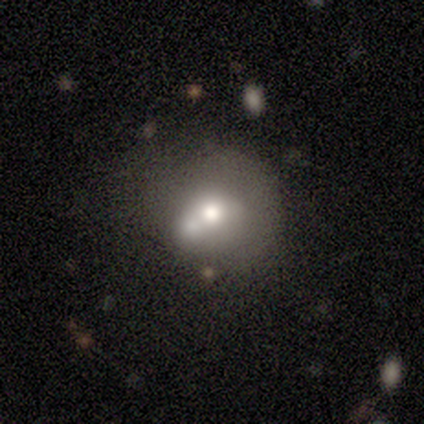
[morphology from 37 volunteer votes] Smooth or featured?
  - smooth: 49% *
  - featured or disk: 38%
  - star or artifact: 14%
How rounded?
  - round: 78% *
  - in between: 22%
  - cigar-shaped: 0%
Merging?
  - merger: 44% *
  - none: 28%
  - major disturbance: 22%
  - minor disturbance: 6%